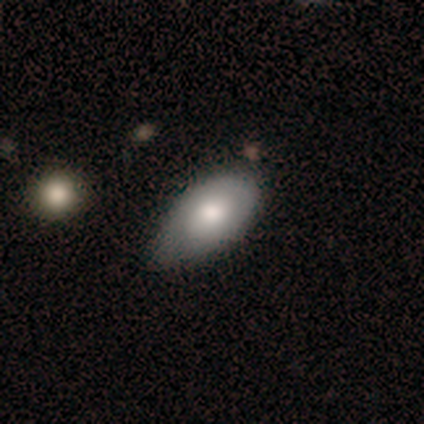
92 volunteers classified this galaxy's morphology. Overall: smooth (71%). How rounded: in between (97%). Merging: minor disturbance (59%; none 35%).